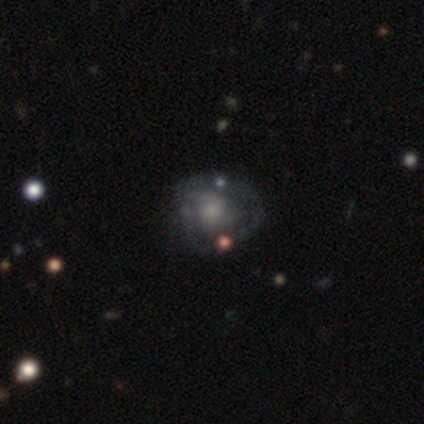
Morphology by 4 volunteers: This is clearly a featured or disk galaxy (100%). It is clearly not viewed edge-on (100%). Bar: clearly no (100%). Spiral arm pattern: possibly yes (50%, tied with no). Spiral arm count: clearly can't tell (100%). Spiral winding: clearly tight (100%). Central bulge: clearly small (100%). Merging: possibly none (50%).